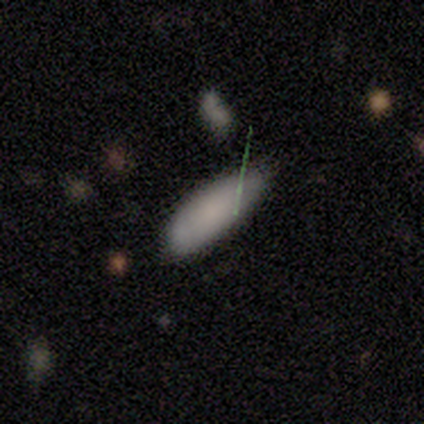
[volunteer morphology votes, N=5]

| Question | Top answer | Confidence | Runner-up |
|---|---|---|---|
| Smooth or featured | smooth | 80% | star or artifact (20%) |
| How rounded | in between | 100% | — |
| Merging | minor disturbance | 75% | none (25%) |